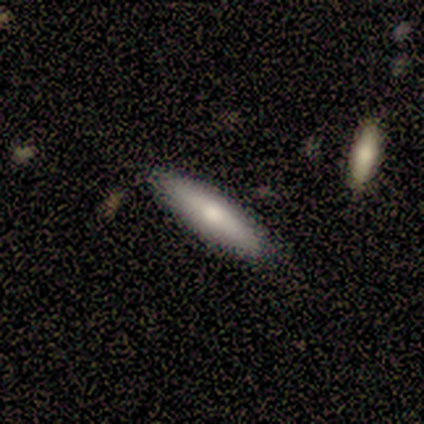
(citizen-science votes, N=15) Overall: smooth (73%). How rounded: cigar-shaped (91%). Merging: none (86%).